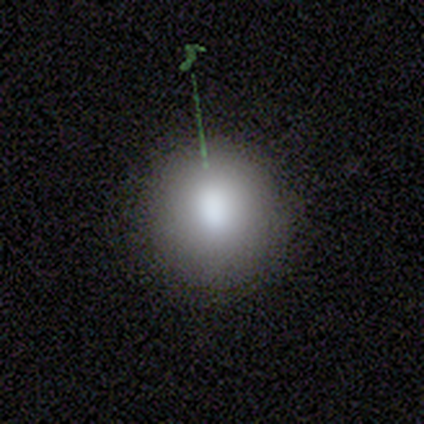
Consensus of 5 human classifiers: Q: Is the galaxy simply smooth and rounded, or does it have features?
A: smooth — 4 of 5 (80%).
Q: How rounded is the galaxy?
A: round — 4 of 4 (100%).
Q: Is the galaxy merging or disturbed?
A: none — 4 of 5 (80%).